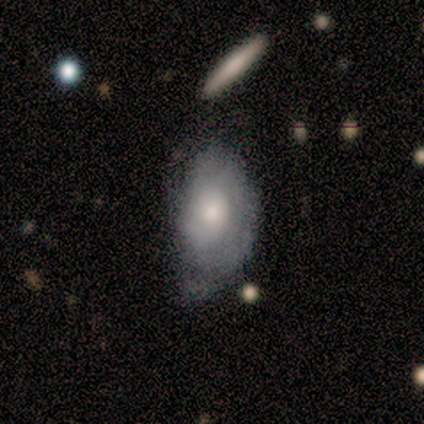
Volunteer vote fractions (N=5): smooth_or_featured: featured or disk (p=0.60) [alt: smooth p=0.40]
disk_edge_on: no (p=1.00)
bar: no (p=1.00)
has_spiral_arms: yes (p=0.67) [alt: no p=0.33]
spiral_winding: tight (p=0.50) [tied with: medium p=0.50]
spiral_arm_count: 2 (p=0.50) [tied with: can't tell p=0.50]
bulge_size: moderate (p=0.67) [alt: small p=0.33]
merging: minor disturbance (p=0.60) [alt: none p=0.20]